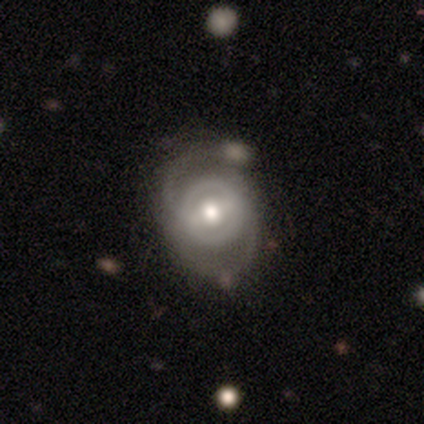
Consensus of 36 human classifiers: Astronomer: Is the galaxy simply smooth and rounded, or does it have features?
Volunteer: featured or disk — 83%.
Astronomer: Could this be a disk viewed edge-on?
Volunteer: no — 100%.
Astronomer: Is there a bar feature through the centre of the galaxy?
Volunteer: strong — 40%, tied with weak at 40%.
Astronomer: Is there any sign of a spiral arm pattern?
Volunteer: yes — 83%.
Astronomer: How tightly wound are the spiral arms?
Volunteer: medium — 52% (runner-up: tight, 36%).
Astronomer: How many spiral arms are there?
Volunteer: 2 — 68%.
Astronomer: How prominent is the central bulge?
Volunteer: moderate — 67%.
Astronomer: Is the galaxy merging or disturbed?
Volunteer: none — 64%.